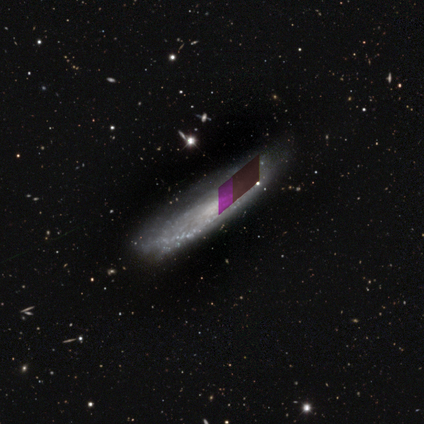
smooth_or_featured: featured or disk (p=0.44) [alt: smooth p=0.33]
disk_edge_on: yes (p=0.50) [tied with: no p=0.50]
edge_on_bulge: none (p=1.00)
merging: none (p=1.00)